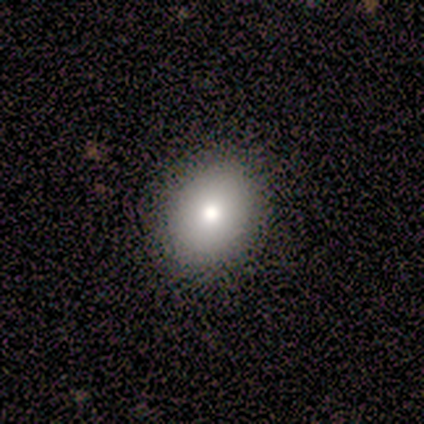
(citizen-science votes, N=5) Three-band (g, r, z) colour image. It shows a smooth galaxy with no disk features (80%) that is in between round and cigar-shaped (75%). Merging: none (100%).